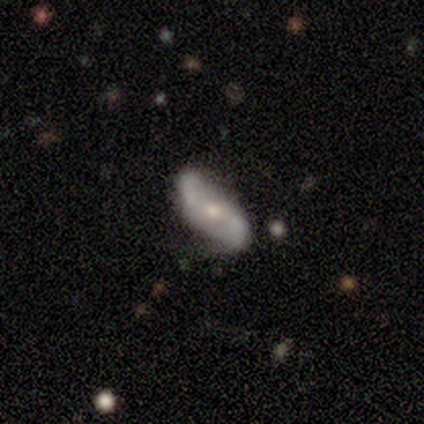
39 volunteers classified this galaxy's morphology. Smooth or featured? featured or disk (74%)
Edge-on disk? no (97%)
Bar? no (50%)
Spiral arms? yes (75%)
Spiral winding? loose (81%)
Spiral arm count? 2 (90%)
Bulge size? small (54%)
Merging? none (72%)